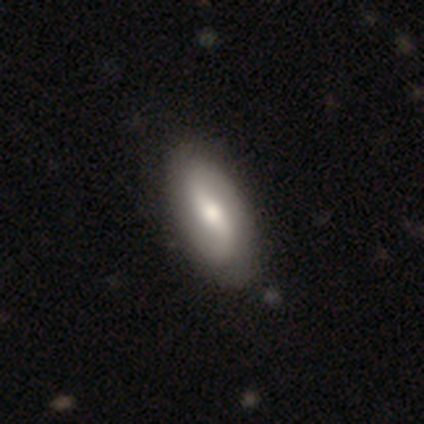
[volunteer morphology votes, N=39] smooth_or_featured: featured or disk (p=0.59) [alt: smooth p=0.38]
disk_edge_on: no (p=0.96) [alt: yes p=0.04]
bar: weak (p=0.41) [alt: strong p=0.36]
has_spiral_arms: yes (p=0.91) [alt: no p=0.09]
spiral_winding: loose (p=0.75) [alt: medium p=0.15]
spiral_arm_count: 2 (p=0.95) [alt: can't tell p=0.05]
bulge_size: moderate (p=0.68) [alt: small p=0.23]
merging: none (p=0.63) [alt: minor disturbance p=0.11]